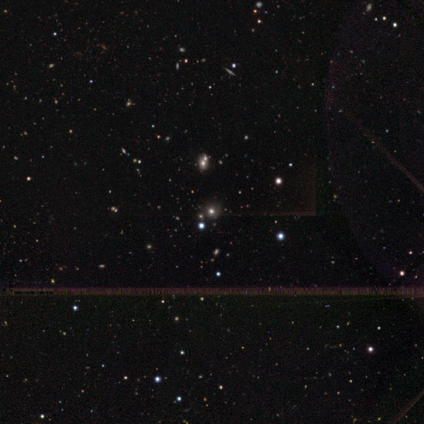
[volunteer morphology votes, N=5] type=star or artifact (100%).